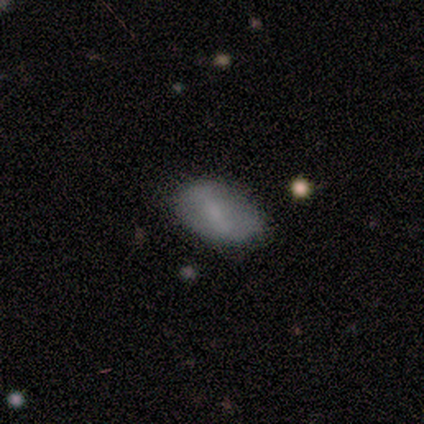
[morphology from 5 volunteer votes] type=smooth (40%, tied with featured or disk); roundness=in between (100%); merging=minor disturbance (50%).